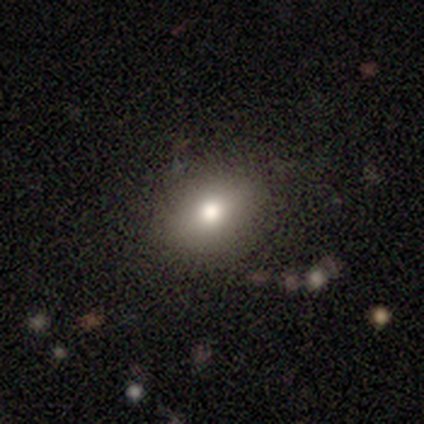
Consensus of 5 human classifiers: Morphology: type=smooth (80%); roundness=round (50%, tied with in between); merging=none (75%).